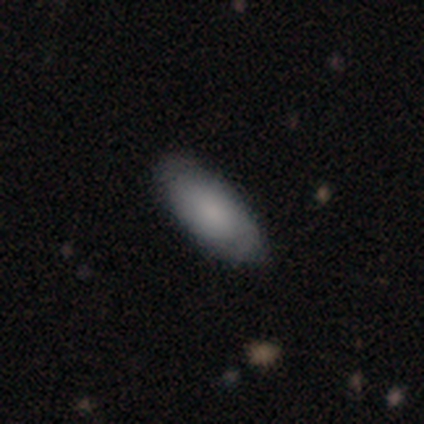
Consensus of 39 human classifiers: Volunteers were most divided on "smooth or featured": smooth: 69%, featured or disk: 21%, star or artifact: 10%. More confident: how rounded — in between (85%); merging — none (77%).